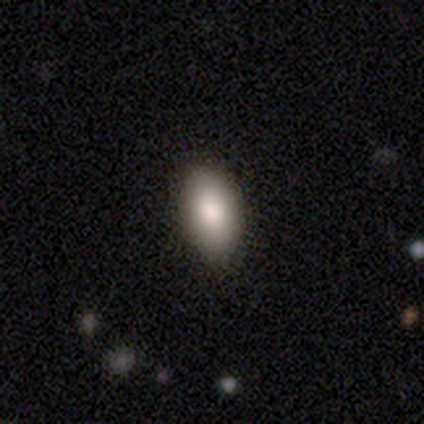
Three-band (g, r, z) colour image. It shows a smooth galaxy with no disk features (100%) that is in between round and cigar-shaped (100%). Merging: none (100%).